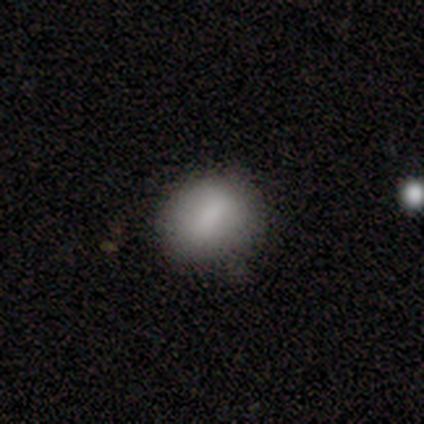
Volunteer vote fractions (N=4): Volunteers were most divided on "how rounded": in between: 75%, round: 25%, cigar-shaped: 0%. More confident: smooth or featured — smooth (100%); merging — none (75%).